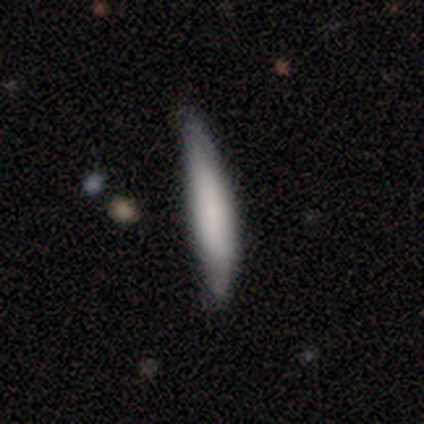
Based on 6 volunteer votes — Smooth or featured: smooth — 83% (featured or disk — 17%)
How rounded: cigar-shaped — 80% (in between — 20%)
Merging: none — 50% (tied with minor disturbance — 50%)